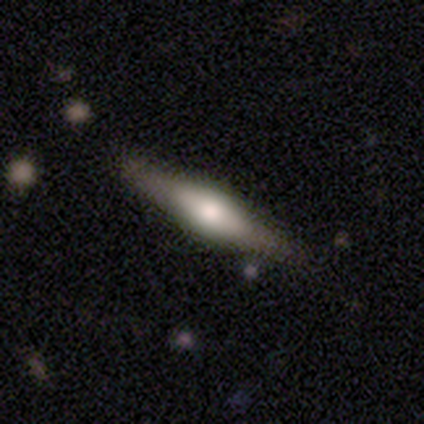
Smooth or featured: featured or disk — 69% (smooth — 31%)
Edge-on disk: yes — 96% (no — 4%)
Edge-on bulge: rounded — 81% (boxy — 15%)
Merging: none — 87% (minor disturbance — 10%)